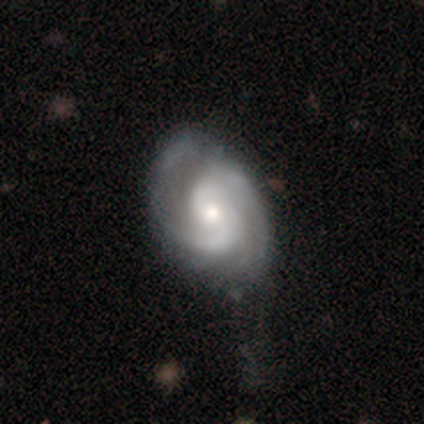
featured or disk 84%, smooth 11%, star or artifact 5%. Down the decision tree: edge-on disk — no (100%); bar — no (66%); spiral arms — yes (97%); spiral arm count — 2 (87%); spiral winding — medium (58%); bulge size — small (50%); merging — none (72%).